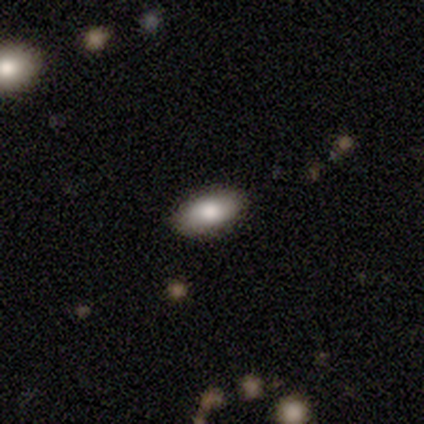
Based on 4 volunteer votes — This appears to be a smooth galaxy with no disk features (75%) that is in between round and cigar-shaped (100%). Merging: none (75%).